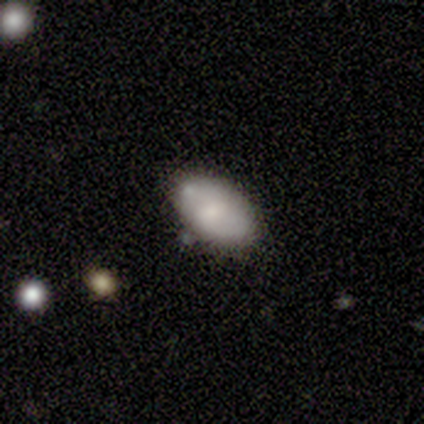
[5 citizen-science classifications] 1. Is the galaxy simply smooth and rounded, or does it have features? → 60% featured or disk, 40% smooth, 0% star or artifact.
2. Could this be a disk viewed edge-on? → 67% no, 33% yes.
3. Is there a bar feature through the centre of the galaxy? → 100% no, 0% strong, 0% weak.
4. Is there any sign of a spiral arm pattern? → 50% yes (tied), 50% no (tied).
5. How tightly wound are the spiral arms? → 100% medium, 0% tight, 0% loose.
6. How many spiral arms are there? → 100% can't tell, 0% 1, 0% 2, 0% 3, 0% 4, 0% more than 4.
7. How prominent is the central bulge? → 100% moderate, 0% dominant, 0% large, 0% small, 0% none.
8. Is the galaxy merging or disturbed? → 60% none, 40% minor disturbance, 0% major disturbance, 0% merger.